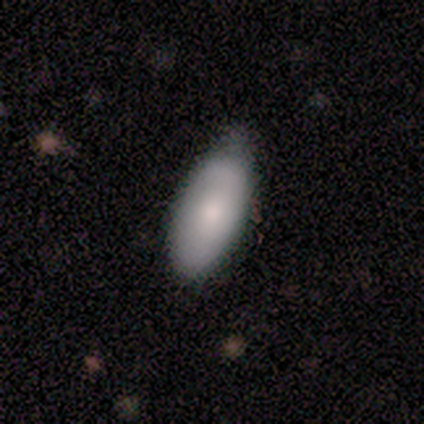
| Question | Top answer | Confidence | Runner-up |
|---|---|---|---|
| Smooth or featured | smooth | 100% | — |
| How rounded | in between | 100% | — |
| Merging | none | 80% | minor disturbance (20%) |